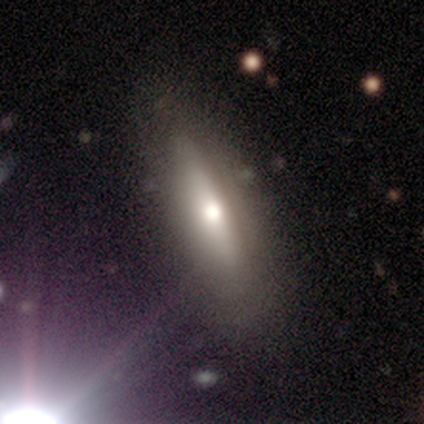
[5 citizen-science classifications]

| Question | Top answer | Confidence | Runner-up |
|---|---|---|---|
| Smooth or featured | smooth | 60% | star or artifact (40%) |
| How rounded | cigar-shaped | 100% | — |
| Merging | none | 67% | minor disturbance (33%) |